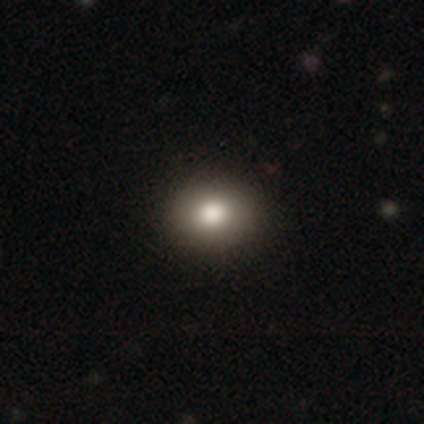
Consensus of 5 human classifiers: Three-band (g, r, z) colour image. It shows a smooth galaxy with no disk features (60%) that is in between round and cigar-shaped (67%). Merging: none (75%).